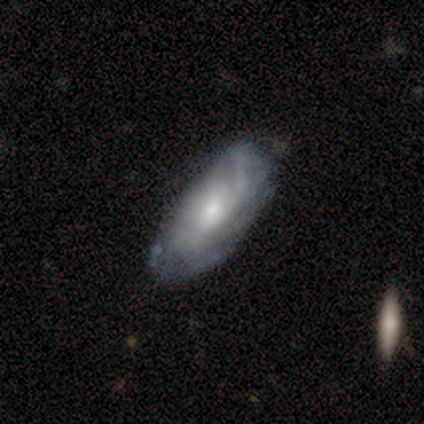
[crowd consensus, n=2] Q: Smooth or featured?
A: featured or disk (100%)
Q: Edge-on disk?
A: no (100%)
Q: Bar?
A: no (100%)
Q: Spiral arms?
A: yes (100%)
Q: Spiral winding?
A: tight (50%); tied with: medium (50%)
Q: Spiral arm count?
A: can't tell (100%)
Q: Bulge size?
A: moderate (50%); tied with: small (50%)
Q: Merging?
A: none (50%); tied with: minor disturbance (50%)